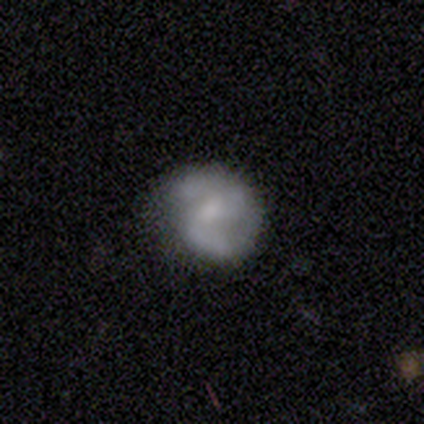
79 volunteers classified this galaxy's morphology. A featured or disk galaxy (68%) with no bar (52%), 2 (61%) medium (49%) spiral arms (76%) and a moderate central bulge (39%). Merging: none (24%).